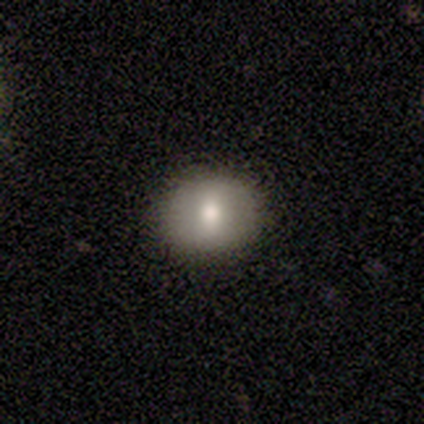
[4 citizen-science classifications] smooth_or_featured: smooth (p=0.75) [alt: star or artifact p=0.25]
how_rounded: round (p=0.67) [alt: in between p=0.33]
merging: none (p=1.00)